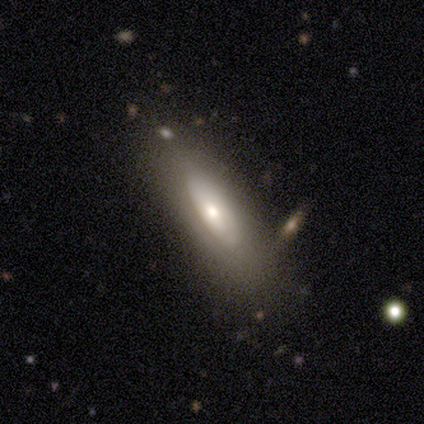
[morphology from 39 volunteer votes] A featured or disk galaxy (77%) with no bar (91%), no spiral arms (91%) and a moderate central bulge (61%). Merging: none (84%).